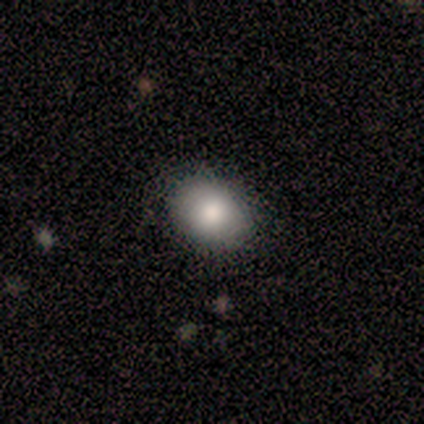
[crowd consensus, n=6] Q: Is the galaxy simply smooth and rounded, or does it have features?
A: smooth — 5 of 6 (83%).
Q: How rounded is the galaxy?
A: in between — 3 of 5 (60%).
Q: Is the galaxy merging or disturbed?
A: none — 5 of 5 (100%).